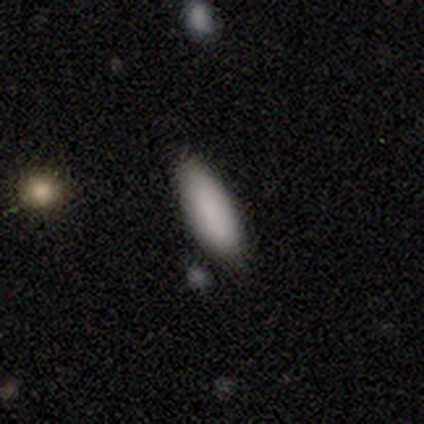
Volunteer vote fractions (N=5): A smooth galaxy with no disk features (80%) that is in between round and cigar-shaped (75%).

Vote fractions:
- Smooth or featured? smooth: 80% / star or artifact: 20% / featured or disk: 0%
- How rounded? in between: 75% / cigar-shaped: 25% / round: 0%
- Merging? none: 75% / minor disturbance: 25% / major disturbance: 0% / merger: 0%